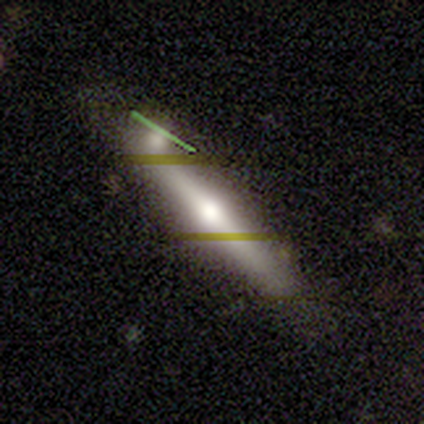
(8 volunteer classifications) Morphology: type=featured or disk (62%); edge-on=yes (100%); edge-on bulge=rounded (100%); merging=none (62%).